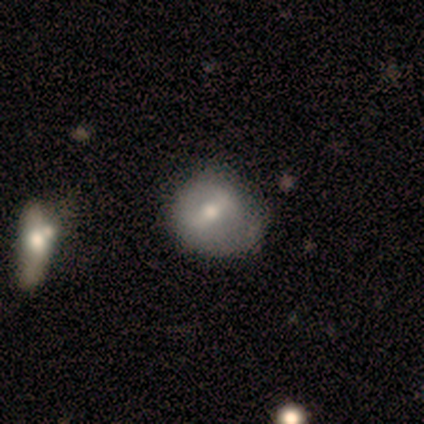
Smooth or featured?
  - smooth: 60% *
  - featured or disk: 40%
  - star or artifact: 0%
How rounded?
  - round: 67% *
  - in between: 33%
  - cigar-shaped: 0%
Merging?
  - none: 60% *
  - minor disturbance: 40%
  - major disturbance: 0%
  - merger: 0%